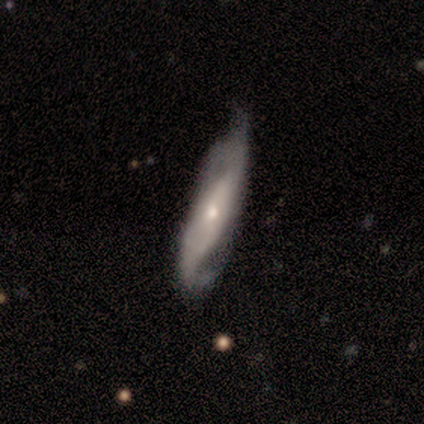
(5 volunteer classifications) featured or disk 100%, smooth 0%, star or artifact 0%. Down the decision tree: edge-on disk — no (100%); bar — no (60%); spiral arms — yes (100%); spiral arm count — 2 (100%); spiral winding — medium (60%); bulge size — moderate (60%); merging — none (60%).